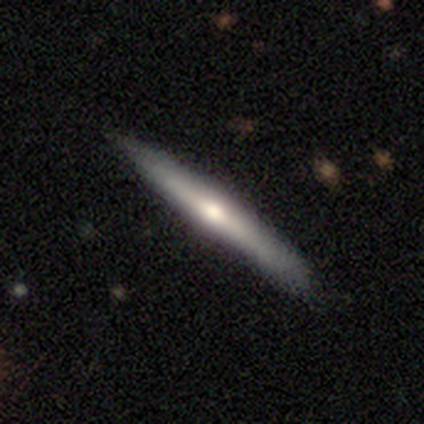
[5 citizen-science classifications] This is clearly a smooth galaxy (80%). How rounded: likely cigar-shaped (75%). Merging: likely none (60%).